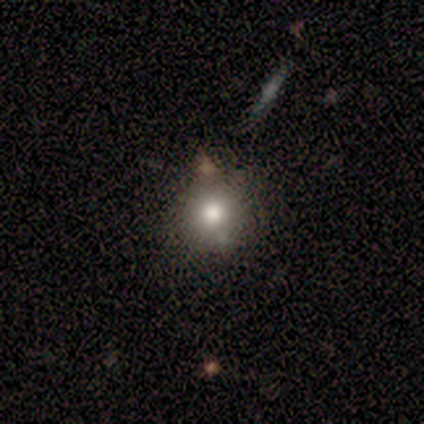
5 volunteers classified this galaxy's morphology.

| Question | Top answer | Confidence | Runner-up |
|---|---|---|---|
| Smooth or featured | smooth | 40% | tied: star or artifact (40%) |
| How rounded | round | 100% | — |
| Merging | none | 100% | — |